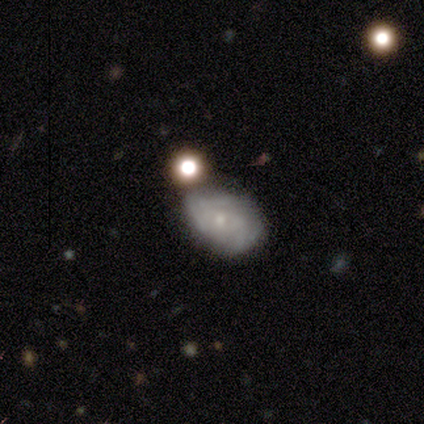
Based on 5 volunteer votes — Smooth or featured?
  - featured or disk: 80% *
  - smooth: 20%
  - star or artifact: 0%
Edge-on disk?
  - no: 100% *
  - yes: 0%
Bar?
  - no: 100% *
  - strong: 0%
  - weak: 0%
Spiral arms?
  - yes: 50% * (tied)
  - no: 50% * (tied)
Spiral winding?
  - tight: 100% *
  - medium: 0%
  - loose: 0%
Spiral arm count?
  - can't tell: 100% *
  - 1: 0%
  - 2: 0%
  - 3: 0%
  - 4: 0%
  - more than 4: 0%
Bulge size?
  - small: 75% *
  - large: 25%
  - dominant: 0%
  - moderate: 0%
  - none: 0%
Merging?
  - none: 40% * (tied)
  - minor disturbance: 40% * (tied)
  - merger: 20%
  - major disturbance: 0%